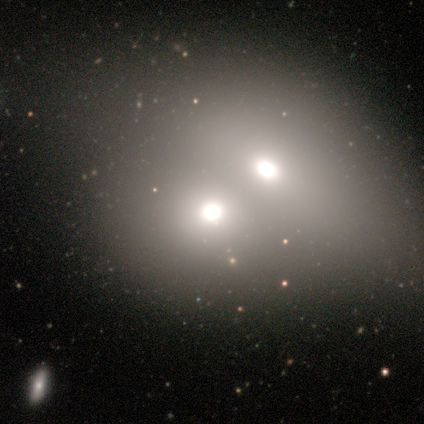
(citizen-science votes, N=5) Q: Smooth or featured?
A: smooth (60%); runner-up: featured or disk (20%)
Q: How rounded?
A: round (67%); runner-up: in between (33%)
Q: Merging?
A: merger (100%)